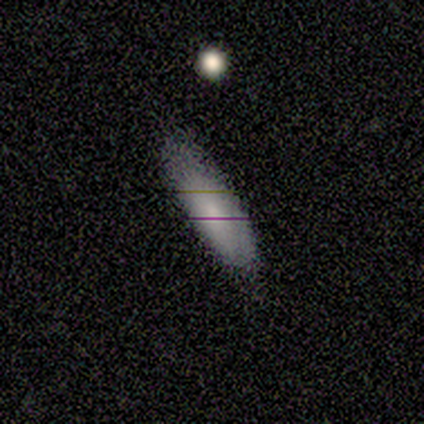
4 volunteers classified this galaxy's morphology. This is likely a smooth galaxy (75%). How rounded: likely in between (67%). Merging: clearly none (100%).